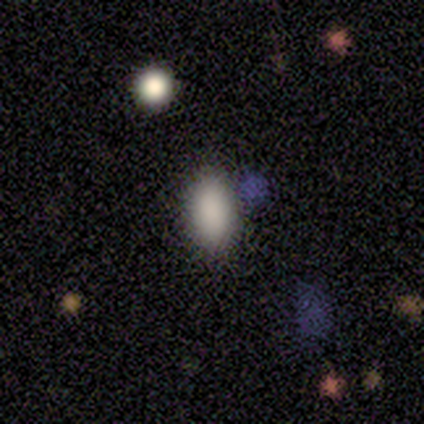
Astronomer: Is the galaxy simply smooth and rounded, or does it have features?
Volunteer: smooth — 92%.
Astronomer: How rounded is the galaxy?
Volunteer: in between — 100%.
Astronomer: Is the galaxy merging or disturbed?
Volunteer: none — 100%.